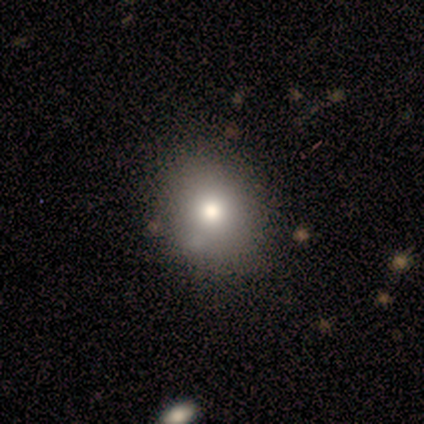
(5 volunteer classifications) Smooth or featured? smooth (80%)
How rounded? round (75%)
Merging? none (75%)